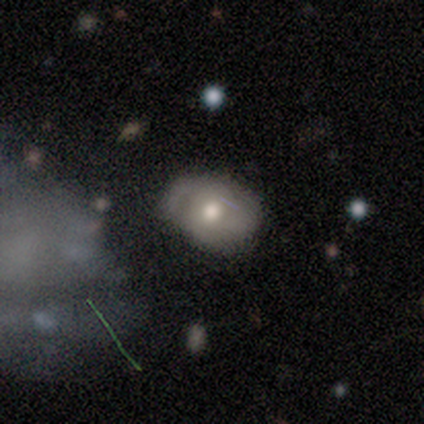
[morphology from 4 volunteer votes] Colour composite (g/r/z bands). It shows a star or artifact, not a galaxy (50%).